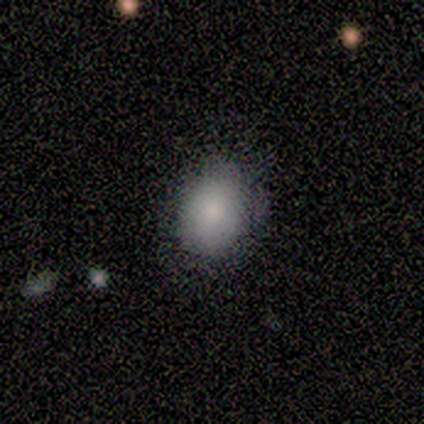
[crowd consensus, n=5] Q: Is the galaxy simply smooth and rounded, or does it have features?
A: smooth — 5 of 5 (100%).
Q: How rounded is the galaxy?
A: in between — 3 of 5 (60%).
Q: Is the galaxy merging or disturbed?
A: minor disturbance — 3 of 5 (60%).